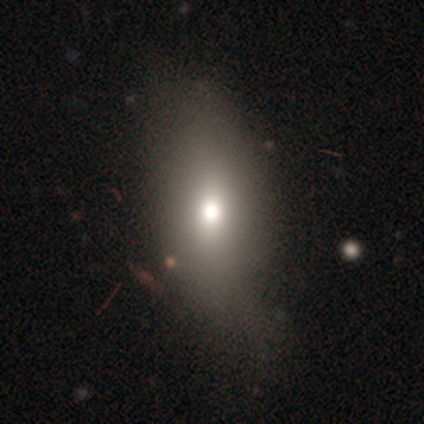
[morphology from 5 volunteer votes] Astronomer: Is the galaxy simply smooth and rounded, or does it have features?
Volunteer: featured or disk — 60%.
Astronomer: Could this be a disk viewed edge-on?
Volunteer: no — 100%.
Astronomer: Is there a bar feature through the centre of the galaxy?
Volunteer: no — 100%.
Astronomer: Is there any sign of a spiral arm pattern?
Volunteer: no — 67%.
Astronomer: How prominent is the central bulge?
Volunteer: small — 67%.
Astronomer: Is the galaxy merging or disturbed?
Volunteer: none — 75%.